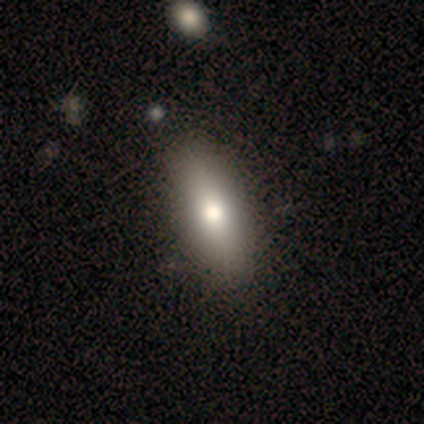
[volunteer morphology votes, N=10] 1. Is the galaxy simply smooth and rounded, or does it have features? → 80% smooth, 10% featured or disk, 10% star or artifact.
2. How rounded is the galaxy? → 88% in between, 12% cigar-shaped, 0% round.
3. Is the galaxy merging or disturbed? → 78% none, 22% minor disturbance, 0% major disturbance, 0% merger.